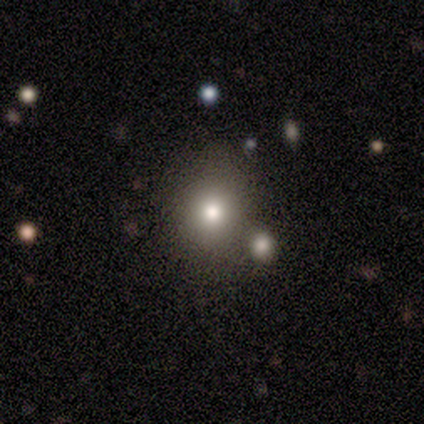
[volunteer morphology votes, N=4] Volunteers were most divided on "merging" (2-way tie): none: 50%, merger: 50%, minor disturbance: 0%, major disturbance: 0%. More confident: smooth or featured — smooth (100%); how rounded — round (75%).